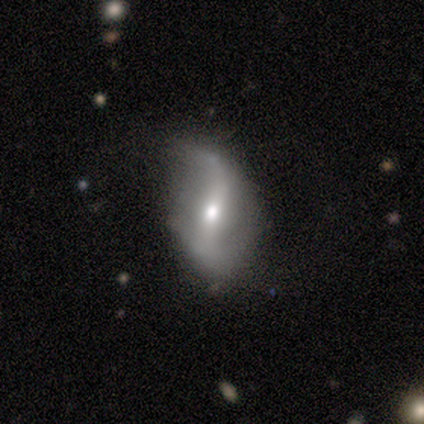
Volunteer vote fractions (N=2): Overall: featured or disk (100%). Edge-on disk: no (100%). Bar: strong (50%, tied with no). Spiral arms: yes (100%). Spiral arm count: 1 (50%, tied with 2). Spiral winding: loose (100%). Bulge size: moderate (100%). Merging: none (50%, tied with major disturbance).